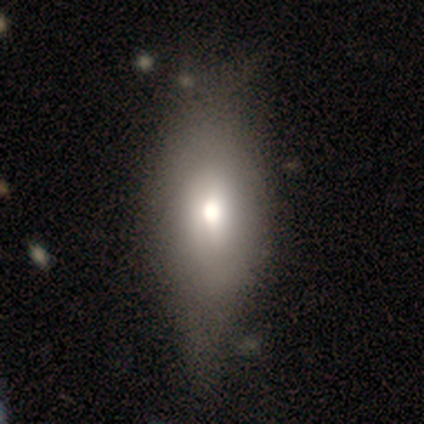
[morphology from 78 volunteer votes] smooth-or-featured: smooth: 64% | featured or disk: 29% | star or artifact: 6%
  how-rounded: in between: 84% | cigar-shaped: 12% | round: 4%
  merging: none: 45% | minor disturbance: 25% | major disturbance: 11% | merger: 3%